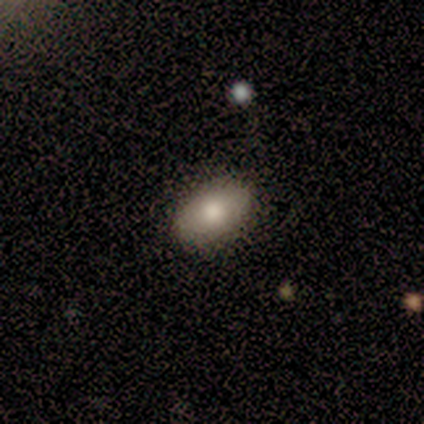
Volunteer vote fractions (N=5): Overall: smooth (100%). How rounded: in between (80%). Merging: none (80%).